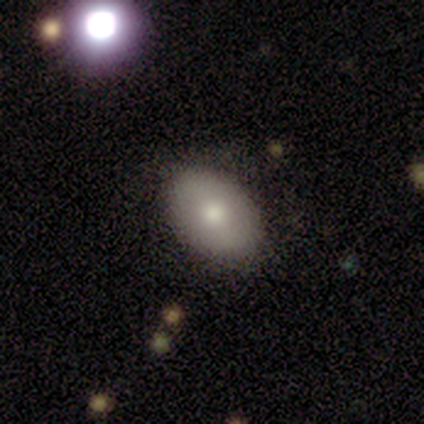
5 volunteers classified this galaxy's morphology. type=featured or disk (60%); edge-on=no (100%); bar=no (100%); spiral arms=no (100%); bulge=large (33%, tied with moderate and small); merging=none (60%).